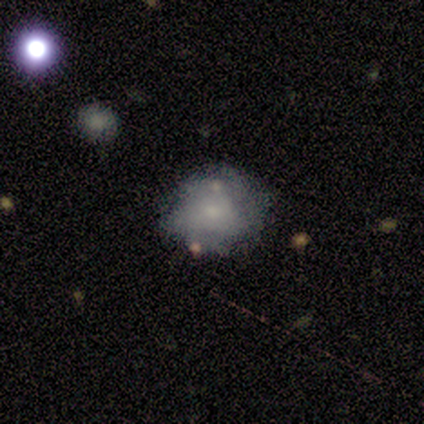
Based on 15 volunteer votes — smooth 60%, featured or disk 20%, star or artifact 20%. Down the decision tree: how rounded — round (67%); merging — none (58%).